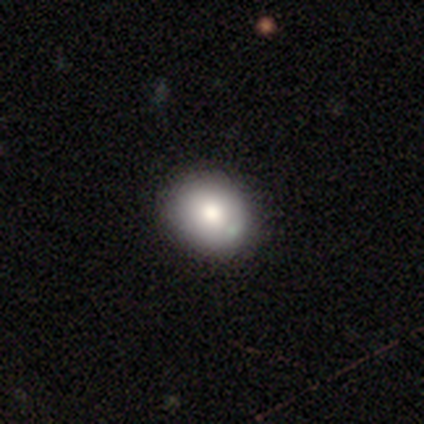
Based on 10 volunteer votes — smooth 80%, featured or disk 20%, star or artifact 0%. Down the decision tree: how rounded — round (75%); merging — none (80%).